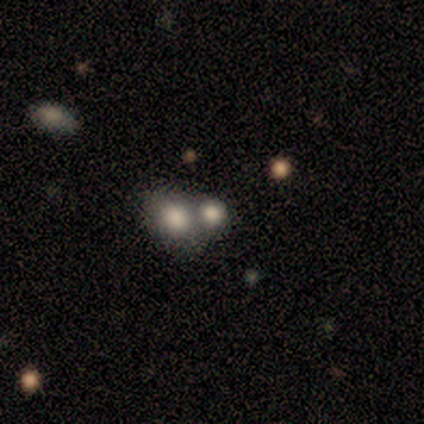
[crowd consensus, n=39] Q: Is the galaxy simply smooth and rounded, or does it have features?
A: smooth — 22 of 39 (56%).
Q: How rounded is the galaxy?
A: round — 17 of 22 (77%).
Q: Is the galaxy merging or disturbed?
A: merger — 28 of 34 (82%).